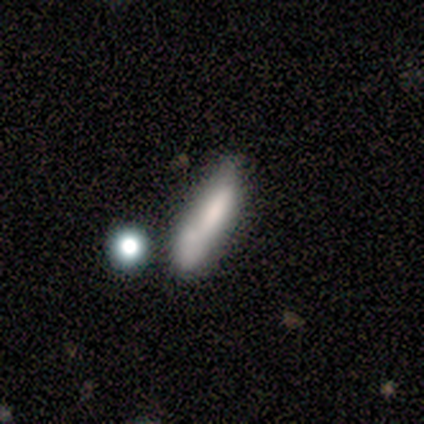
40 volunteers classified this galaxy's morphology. Overall: smooth (62%; featured or disk 30%). How rounded: cigar-shaped (76%). Merging: minor disturbance (51%; none 22%).